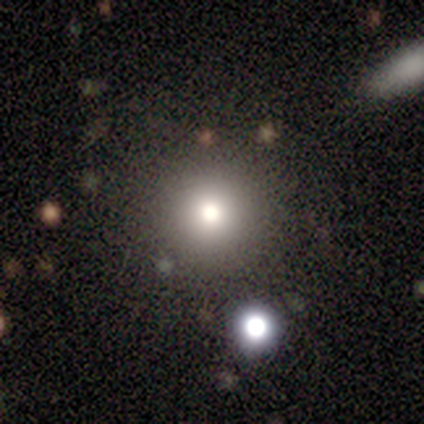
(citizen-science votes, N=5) Smooth or featured: smooth — 80% (star or artifact — 20%)
How rounded: round — 75% (in between — 25%)
Merging: none — 50% (minor disturbance — 25%)